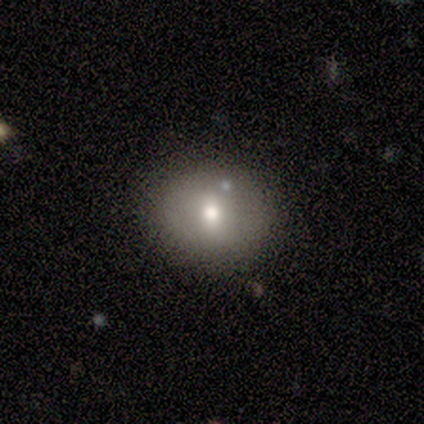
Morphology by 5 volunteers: A smooth galaxy with no disk features (100%) that is round (100%).

Vote fractions:
- Smooth or featured? smooth: 100% / featured or disk: 0% / star or artifact: 0%
- How rounded? round: 100% / in between: 0% / cigar-shaped: 0%
- Merging? none: 80% / major disturbance: 20% / minor disturbance: 0% / merger: 0%